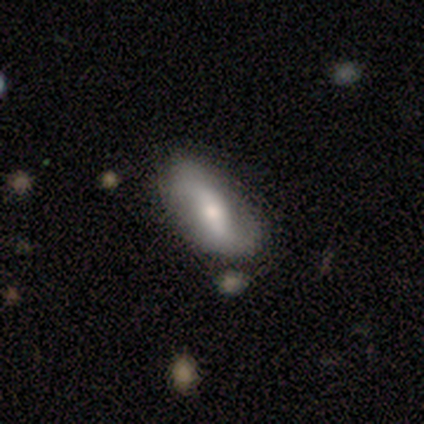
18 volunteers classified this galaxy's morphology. This is likely a featured or disk galaxy (67%). It is clearly not viewed edge-on (100%). Bar: marginally strong (42%, tied with weak). Spiral arm pattern: clearly yes (100%). Spiral arm count: clearly 2 (100%). Spiral winding: likely loose (67%). Central bulge: likely moderate (67%). Merging: likely none (76%).